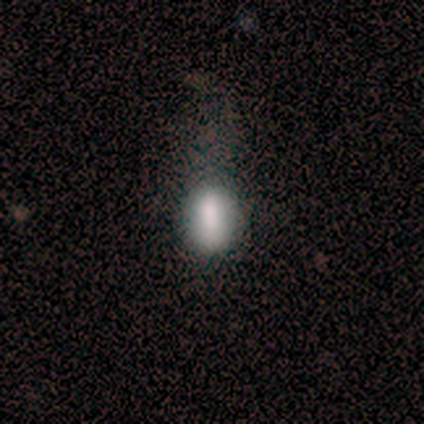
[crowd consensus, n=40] smooth 70%, star or artifact 18%, featured or disk 12%. Down the decision tree: how rounded — in between (68%); merging — minor disturbance (39%).